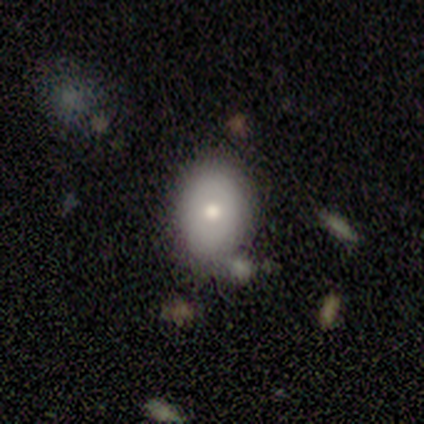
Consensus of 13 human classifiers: Q: Smooth or featured?
A: smooth (69%); runner-up: featured or disk (31%)
Q: How rounded?
A: in between (67%); runner-up: round (33%)
Q: Merging?
A: none (54%); runner-up: minor disturbance (31%)